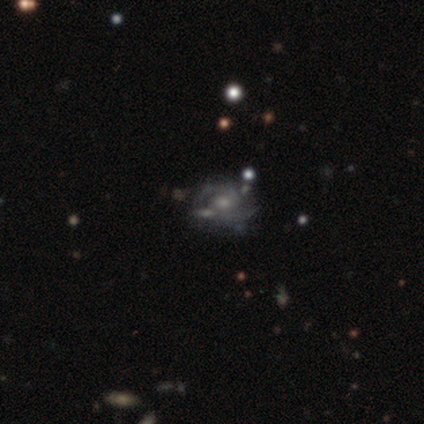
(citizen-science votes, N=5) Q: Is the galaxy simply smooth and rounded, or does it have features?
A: smooth — 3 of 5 (60%).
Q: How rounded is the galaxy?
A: round — 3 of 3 (100%).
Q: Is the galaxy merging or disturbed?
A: none — 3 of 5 (60%).